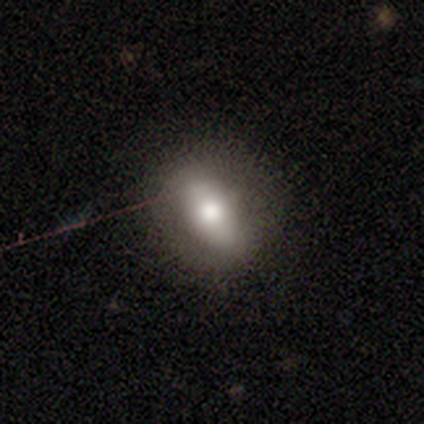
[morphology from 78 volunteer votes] Q: Smooth or featured?
A: smooth (72%); runner-up: featured or disk (22%)
Q: How rounded?
A: in between (82%); runner-up: round (12%)
Q: Merging?
A: none (51%); runner-up: minor disturbance (12%)